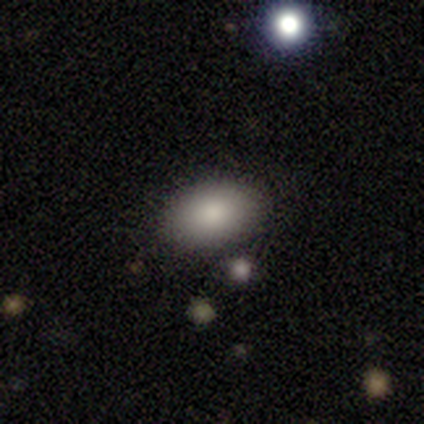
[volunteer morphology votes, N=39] This appears to be a smooth galaxy with no disk features (77%) that is in between round and cigar-shaped (93%). Merging: none (83%).